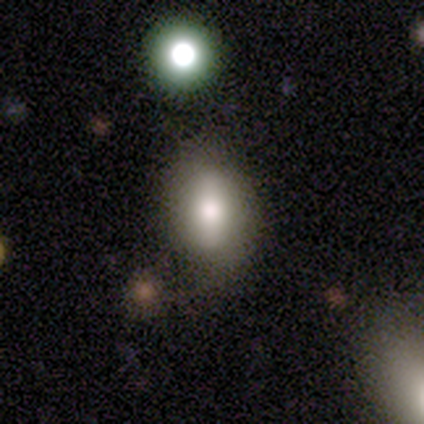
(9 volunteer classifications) smooth_or_featured: smooth (p=0.78) [alt: featured or disk p=0.11]
how_rounded: in between (p=0.86) [alt: round p=0.14]
merging: none (p=0.75) [alt: minor disturbance p=0.12]